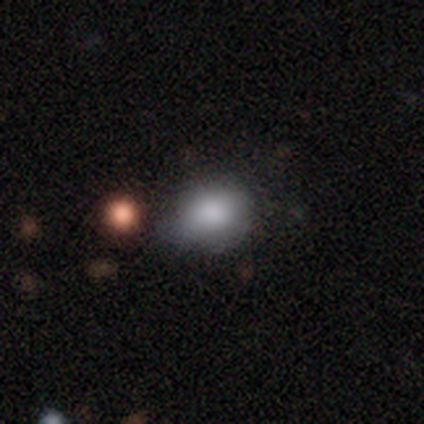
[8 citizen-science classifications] This appears to be a smooth galaxy with no disk features (75%) that is round (50%, tied with in between). Merging: none (71%).